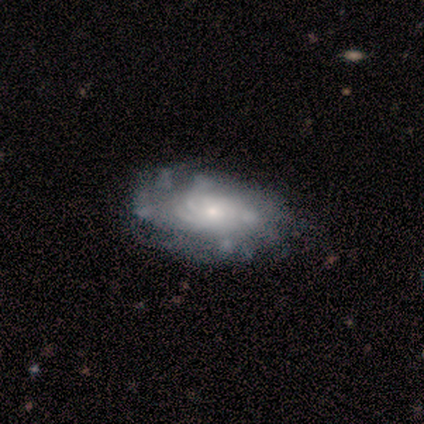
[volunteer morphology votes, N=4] This is likely a featured or disk galaxy (75%). It is likely not viewed edge-on (67%). Bar: clearly no (100%). Spiral arm pattern: clearly yes (100%). Spiral arm count: possibly more than 4 (50%, tied with can't tell). Spiral winding: possibly tight (50%, tied with medium). Central bulge: clearly small (100%). Merging: clearly none (100%).